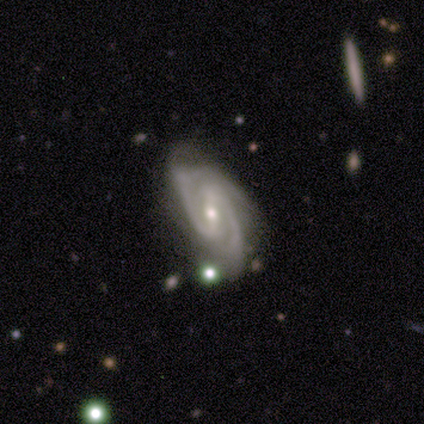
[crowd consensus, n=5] Volunteers were most divided on "bar": strong: 50%, weak: 25%, no: 25%. More confident: smooth or featured — featured or disk (100%); spiral arms — yes (100%); spiral arm count — 2 (100%); edge-on disk — no (80%); merging — none (80%); bulge size — small (75%); spiral winding — tight (50%).